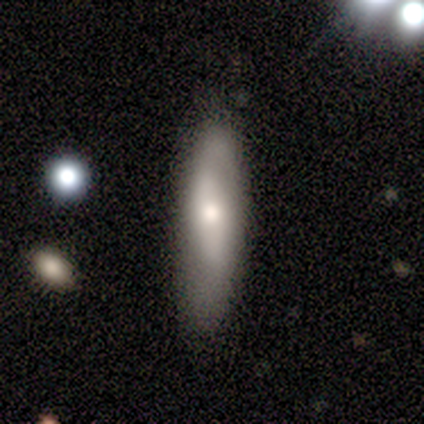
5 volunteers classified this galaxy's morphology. Overall: smooth (40%, tied with featured or disk). How rounded: cigar-shaped (100%). Merging: none (75%).